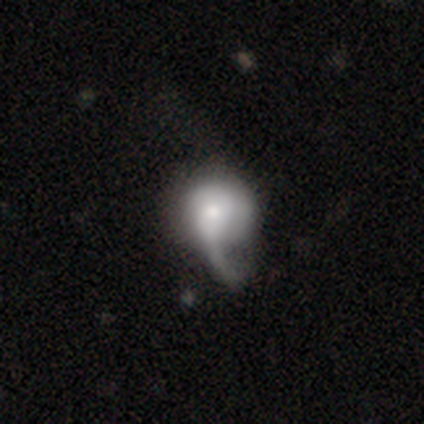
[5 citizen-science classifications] This appears to be a featured or disk galaxy (80%) with no bar (75%), no spiral arms (75%) and a moderate central bulge (75%). Merging: major disturbance (60%).